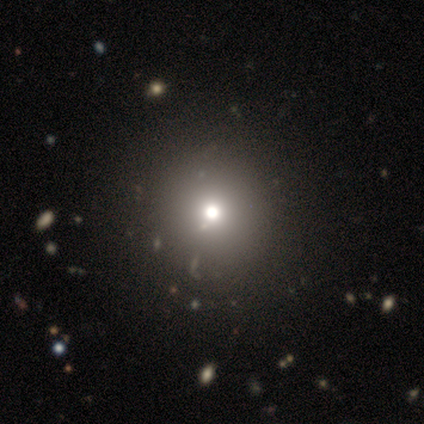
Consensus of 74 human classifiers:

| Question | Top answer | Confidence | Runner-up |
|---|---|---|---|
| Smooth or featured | smooth | 69% | star or artifact (19%) |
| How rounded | round | 100% | — |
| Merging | none | 82% | minor disturbance (8%) |